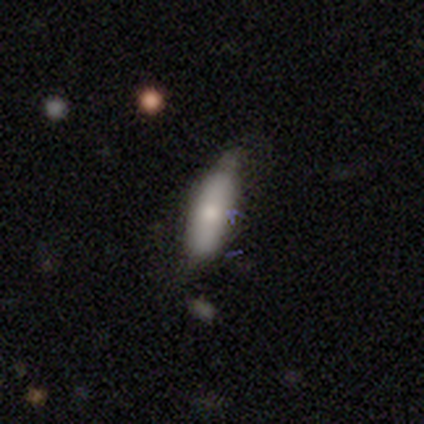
smooth_or_featured: smooth (p=0.40) [tied with: featured or disk p=0.40]
how_rounded: in between (p=0.50) [tied with: cigar-shaped p=0.50]
merging: none (p=0.50) [tied with: minor disturbance p=0.50]